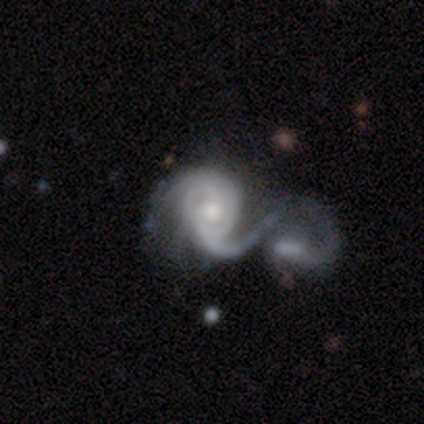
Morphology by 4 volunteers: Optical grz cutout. It shows a featured or disk galaxy (100%) with a weak bar (50%, tied with no), 2 (75%) medium (100%) spiral arms (100%) and a moderate central bulge (75%). Merging: major disturbance (50%, tied with merger).